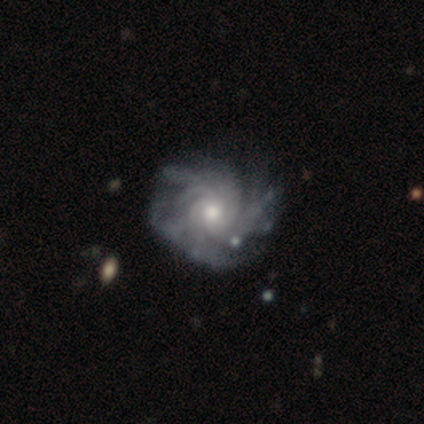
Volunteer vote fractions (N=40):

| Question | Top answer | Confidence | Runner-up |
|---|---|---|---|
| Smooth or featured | featured or disk | 98% | star or artifact (2%) |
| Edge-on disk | no | 100% | — |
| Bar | no | 85% | weak (15%) |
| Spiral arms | yes | 100% | — |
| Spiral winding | tight | 77% | medium (15%) |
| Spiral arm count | can't tell | 44% | more than 4 (28%) |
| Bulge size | moderate | 77% | small (21%) |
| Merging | none | 56% | minor disturbance (15%) |